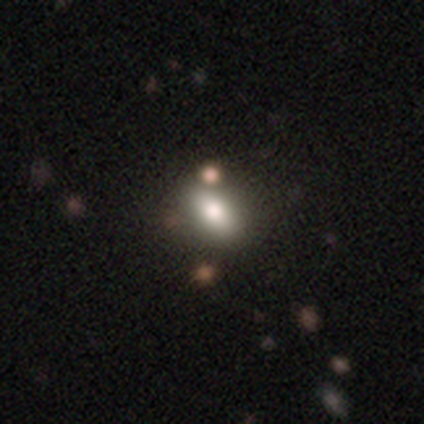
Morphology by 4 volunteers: Overall: smooth (100%). How rounded: in between (100%). Merging: none (75%).